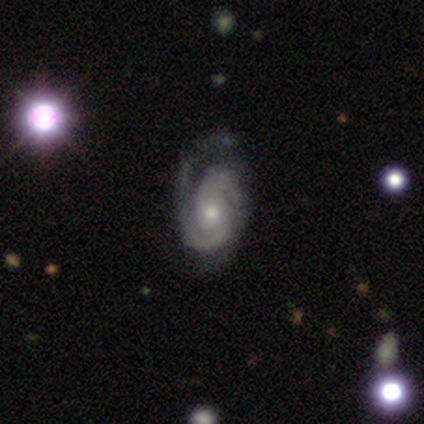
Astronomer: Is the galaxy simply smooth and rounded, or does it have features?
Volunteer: featured or disk — 100%.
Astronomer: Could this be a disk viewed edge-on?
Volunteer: no — 100%.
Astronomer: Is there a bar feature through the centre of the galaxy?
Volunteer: weak — 50%.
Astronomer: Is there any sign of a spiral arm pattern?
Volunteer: yes — 100%.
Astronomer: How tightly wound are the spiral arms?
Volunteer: tight — 75%.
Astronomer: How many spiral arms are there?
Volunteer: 2 — 50%.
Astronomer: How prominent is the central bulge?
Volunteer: small — 75%.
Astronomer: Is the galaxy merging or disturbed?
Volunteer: none — 100%.